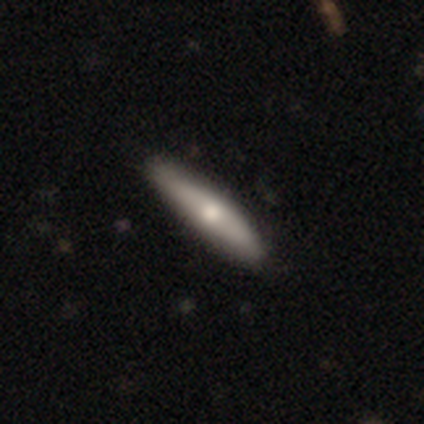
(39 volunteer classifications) This is likely a smooth galaxy (67%). How rounded: clearly cigar-shaped (85%). Merging: likely none (67%).